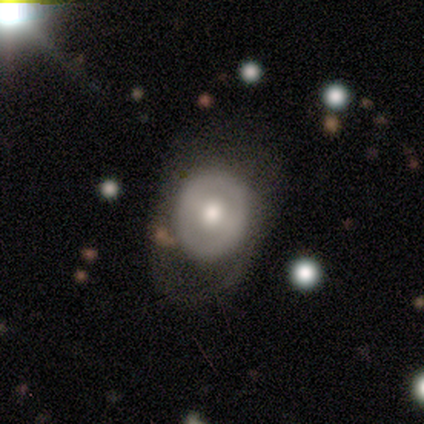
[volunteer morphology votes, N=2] This appears to be a smooth galaxy with no disk features (50%, tied with featured or disk) that is in between round and cigar-shaped (100%). Merging: major disturbance (100%).